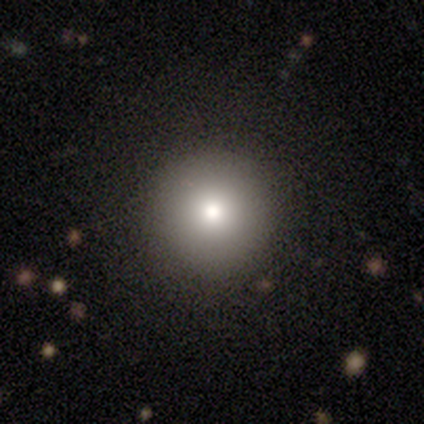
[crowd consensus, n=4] Smooth or featured? 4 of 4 (100%) said smooth. How rounded? 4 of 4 (100%) said round. Merging? 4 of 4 (100%) said none.